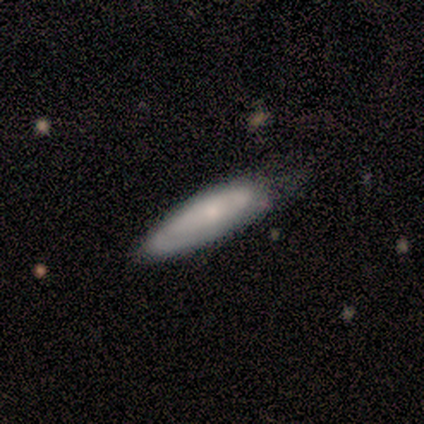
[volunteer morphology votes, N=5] smooth_or_featured: smooth (p=0.80) [alt: featured or disk p=0.20]
how_rounded: in between (p=0.50) [tied with: cigar-shaped p=0.50]
merging: none (p=0.80) [alt: minor disturbance p=0.20]